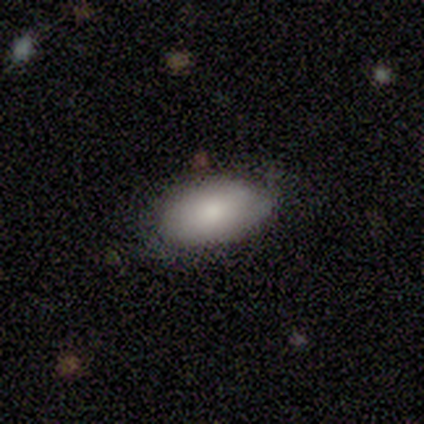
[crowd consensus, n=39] smooth-or-featured: smooth: 85% | featured or disk: 10% | star or artifact: 5%
  how-rounded: in between: 100% | round: 0% | cigar-shaped: 0%
  merging: none: 76% | minor disturbance: 22% | major disturbance: 3% | merger: 0%